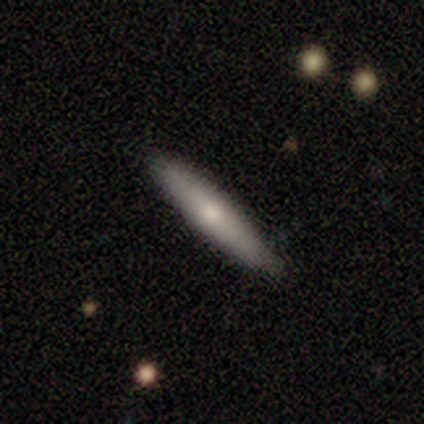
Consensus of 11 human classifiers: Morphology: type=smooth (64%); roundness=cigar-shaped (71%); merging=none (90%).